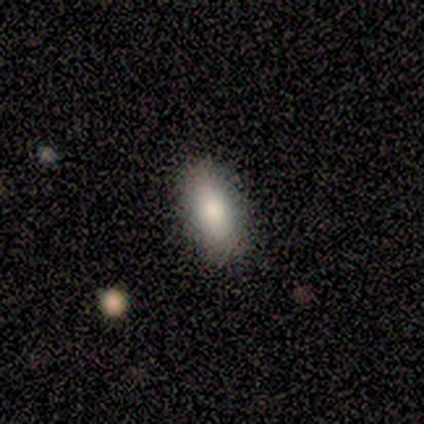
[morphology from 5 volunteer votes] Smooth or featured? smooth (100%)
How rounded? in between (100%)
Merging? none (80%)